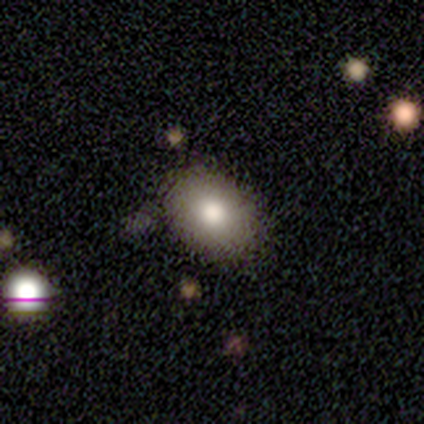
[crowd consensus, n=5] Volunteers were most divided on "how rounded": in between: 75%, round: 25%, cigar-shaped: 0%. More confident: merging — none (100%); smooth or featured — smooth (80%).